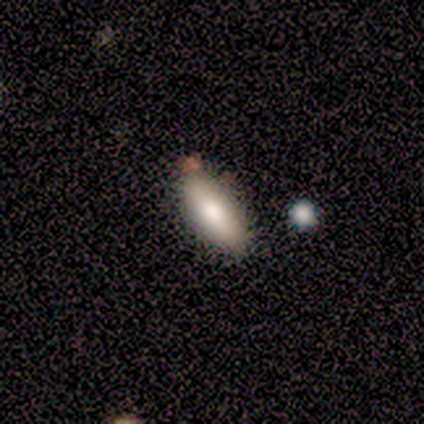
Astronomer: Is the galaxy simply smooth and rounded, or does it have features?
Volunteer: smooth — 100%.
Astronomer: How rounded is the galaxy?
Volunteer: in between — 100%.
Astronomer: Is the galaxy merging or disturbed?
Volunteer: none — 80%.